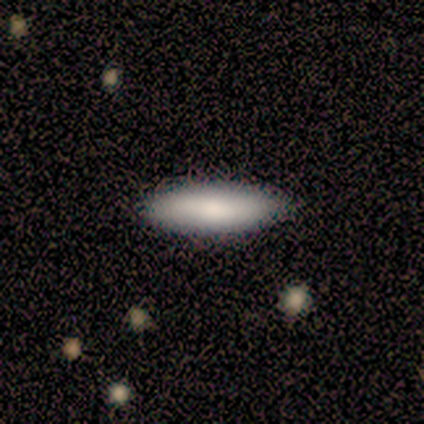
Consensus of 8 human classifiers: Overall: smooth (75%). How rounded: in between (67%; cigar-shaped 33%). Merging: none (100%).